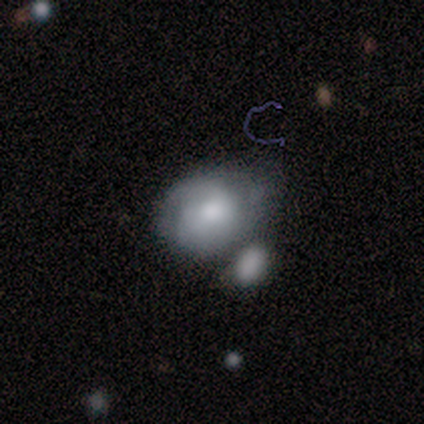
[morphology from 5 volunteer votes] Smooth or featured? 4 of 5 (80%) said smooth. How rounded? 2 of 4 (50%, tied with in between) said round. Merging? 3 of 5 (60%) said none.